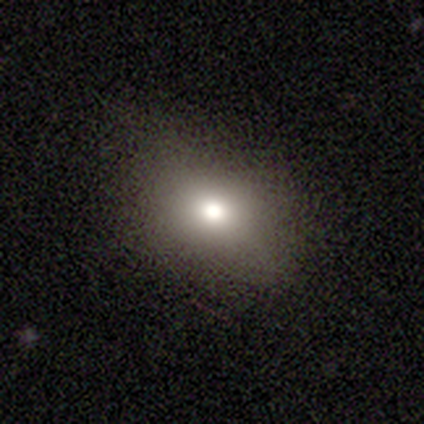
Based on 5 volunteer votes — Smooth or featured? 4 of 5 (80%) said smooth. How rounded? 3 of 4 (75%) said in between. Merging? 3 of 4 (75%) said none.